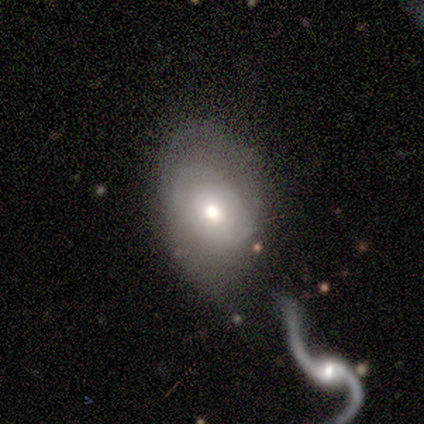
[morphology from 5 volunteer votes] This is likely a featured or disk galaxy (60%). It is clearly not viewed edge-on (100%). Bar: clearly no (100%). Spiral arm pattern: likely no (67%). Central bulge: clearly moderate (100%). Merging: marginally minor disturbance (40%).